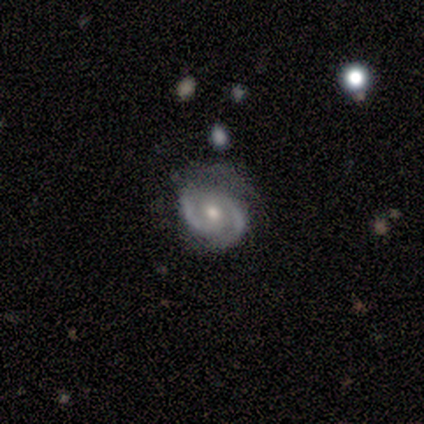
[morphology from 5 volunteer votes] A featured or disk galaxy (80%) with no bar (75%), 2 (100%) medium (75%) spiral arms (100%) and a moderate central bulge (75%). Merging: none (100%).